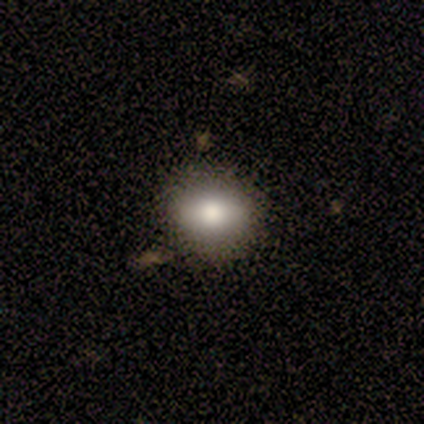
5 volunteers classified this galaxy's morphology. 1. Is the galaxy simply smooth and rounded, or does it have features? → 100% smooth, 0% featured or disk, 0% star or artifact.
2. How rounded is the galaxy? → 60% in between, 40% round, 0% cigar-shaped.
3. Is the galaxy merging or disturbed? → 80% none, 20% merger, 0% minor disturbance, 0% major disturbance.